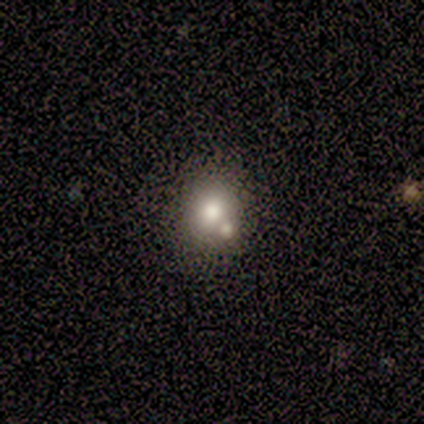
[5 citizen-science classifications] Smooth or featured? smooth (60%)
How rounded? in between (67%)
Merging? minor disturbance (50%)